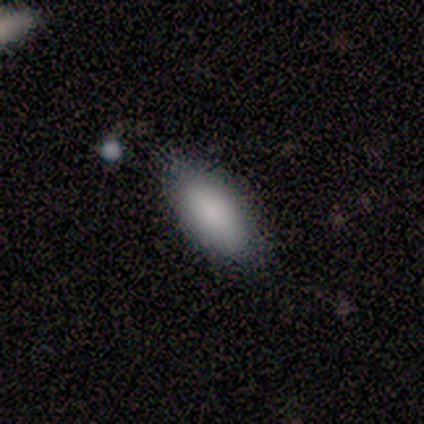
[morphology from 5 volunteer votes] smooth-or-featured: smooth: 100% | featured or disk: 0% | star or artifact: 0%
  how-rounded: in between: 60% | cigar-shaped: 40% | round: 0%
  merging: minor disturbance: 60% | none: 40% | major disturbance: 0% | merger: 0%